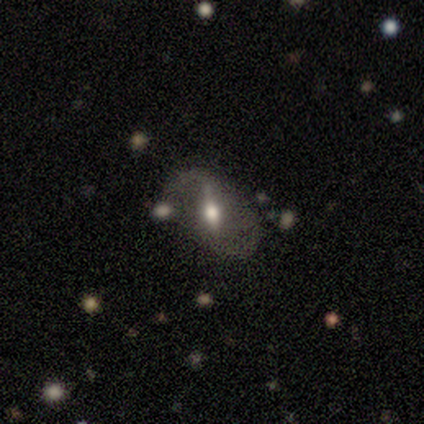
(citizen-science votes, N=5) smooth-or-featured: featured or disk: 60% | smooth: 40% | star or artifact: 0%
  disk-edge-on: no: 100% | yes: 0%
    bar: strong: 100% | weak: 0% | no: 0%
    has-spiral-arms: yes: 67% | no: 33%
      spiral-winding: medium: 50% (tied) | loose: 50% (tied) | tight: 0%
      spiral-arm-count: 2: 100% | 1: 0% | 3: 0% | 4: 0% | more than 4: 0% | can't tell: 0%
    bulge-size: moderate: 100% | dominant: 0% | large: 0% | small: 0% | none: 0%
  merging: none: 60% | minor disturbance: 40% | major disturbance: 0% | merger: 0%